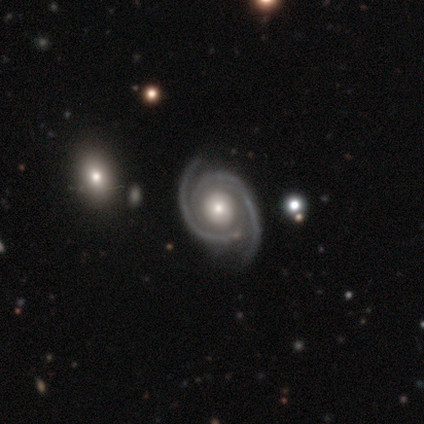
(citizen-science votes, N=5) A featured or disk galaxy (100%) with no bar (80%), 2 (100%) tight (60%) spiral arms (100%) and a moderate central bulge (40%, tied with small). Merging: none (60%).